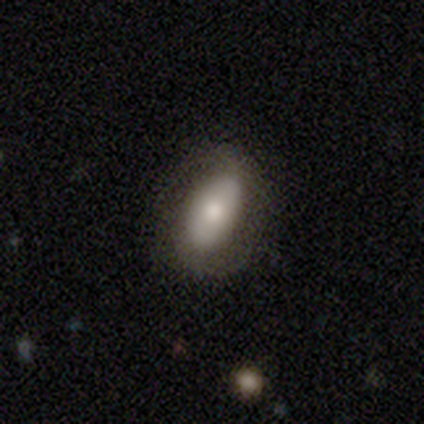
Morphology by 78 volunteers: Smooth or featured: smooth — 65% (featured or disk — 31%)
How rounded: in between — 88% (cigar-shaped — 10%)
Merging: none — 40% (minor disturbance — 11%)